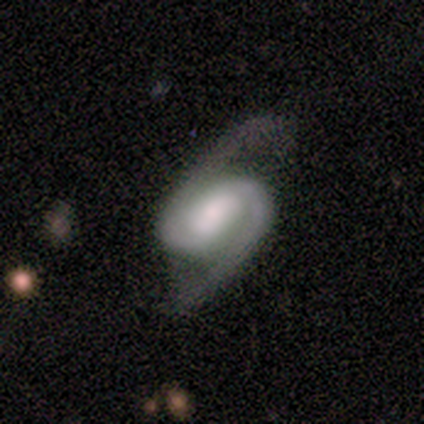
This appears to be a featured or disk galaxy (100%) with a strong bar (40%, tied with weak), 2 (80%) medium (60%) spiral arms (100%) and a moderate central bulge (40%, tied with small). Merging: none (60%).